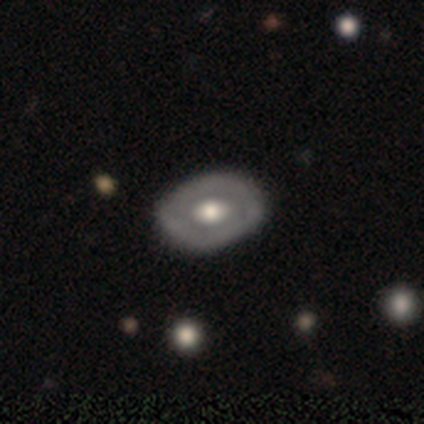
Smooth or featured? 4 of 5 (80%) said smooth. How rounded? 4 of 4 (100%) said in between. Merging? 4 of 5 (80%) said none.